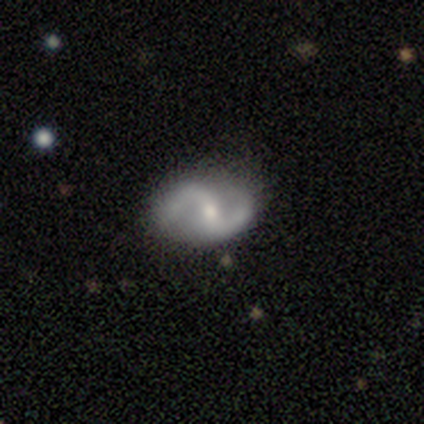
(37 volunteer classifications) Smooth or featured: featured or disk — 89% (smooth — 11%)
Edge-on disk: no — 94% (yes — 6%)
Bar: strong — 35% (weak — 32%)
Spiral arms: yes — 97% (no — 3%)
Spiral winding: loose — 57% (medium — 37%)
Spiral arm count: 2 — 90% (1 — 7%)
Bulge size: small — 52% (moderate — 45%)
Merging: none — 76% (minor disturbance — 16%)